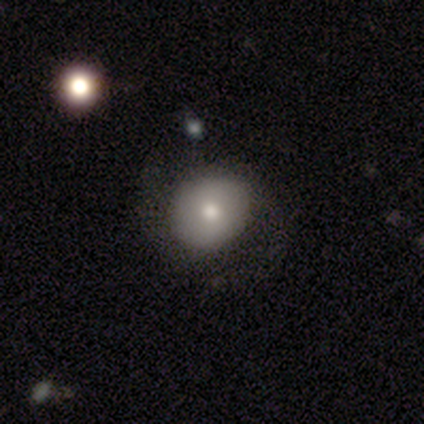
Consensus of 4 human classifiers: Smooth or featured: featured or disk — 75% (smooth — 25%)
Edge-on disk: no — 100%
Bar: no — 100%
Spiral arms: yes — 67% (no — 33%)
Spiral winding: medium — 100%
Spiral arm count: 2 — 100%
Bulge size: large — 67% (dominant — 33%)
Merging: none — 75% (minor disturbance — 25%)